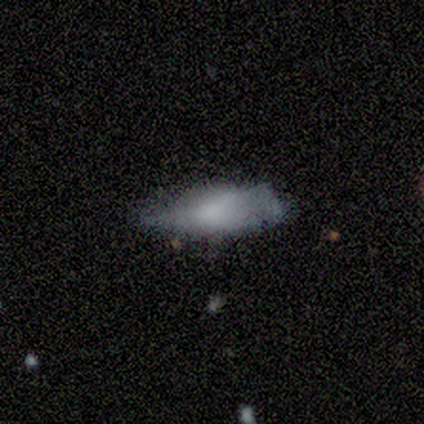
A smooth galaxy with no disk features (80%) that is in between round and cigar-shaped (100%).

Vote fractions:
- Smooth or featured? smooth: 80% / featured or disk: 20% / star or artifact: 0%
- How rounded? in between: 100% / round: 0% / cigar-shaped: 0%
- Merging? none: 40% (tied) / minor disturbance: 40% (tied) / major disturbance: 20% / merger: 0%